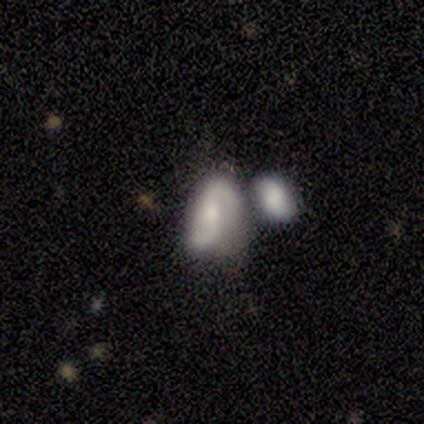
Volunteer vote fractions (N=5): smooth_or_featured: featured or disk (p=0.80) [alt: smooth p=0.20]
disk_edge_on: no (p=1.00)
bar: weak (p=0.50) [tied with: no p=0.50]
has_spiral_arms: yes (p=1.00)
spiral_winding: tight (p=0.50) [alt: medium p=0.25]
spiral_arm_count: 2 (p=1.00)
bulge_size: moderate (p=0.75) [alt: small p=0.25]
merging: none (p=0.40) [tied with: minor disturbance p=0.40]